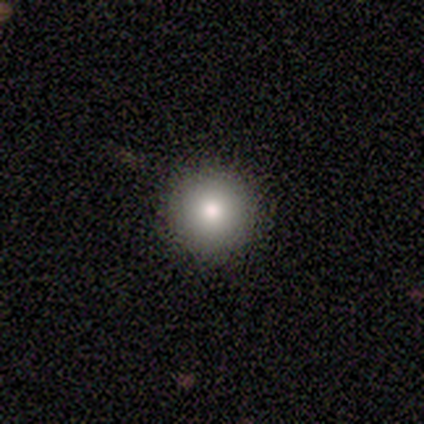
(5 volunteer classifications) A smooth galaxy with no disk features (80%) that is round (100%). Merging: none (100%).